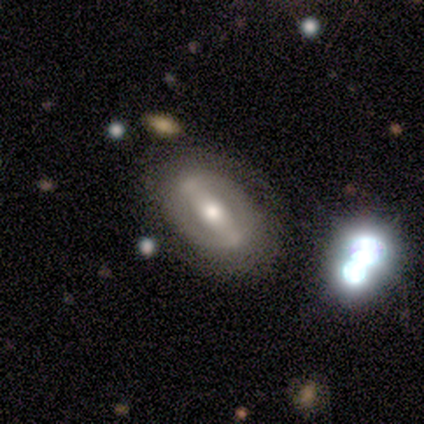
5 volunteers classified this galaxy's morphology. featured or disk 80%, star or artifact 20%, smooth 0%. Down the decision tree: edge-on disk — no (100%); bar — strong (50%); spiral arms — no (75%); bulge size — moderate (75%); merging — none (100%).